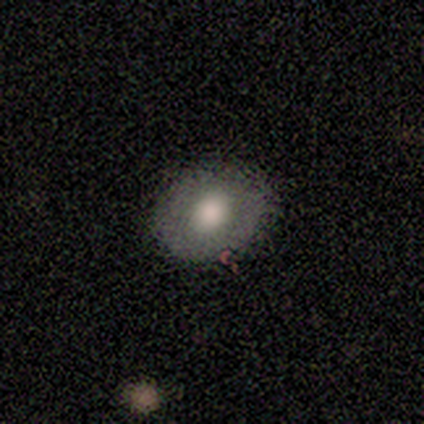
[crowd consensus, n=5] This is marginally a smooth galaxy (40%, tied with star or artifact). How rounded: possibly round (50%, tied with in between). Merging: likely none (67%).